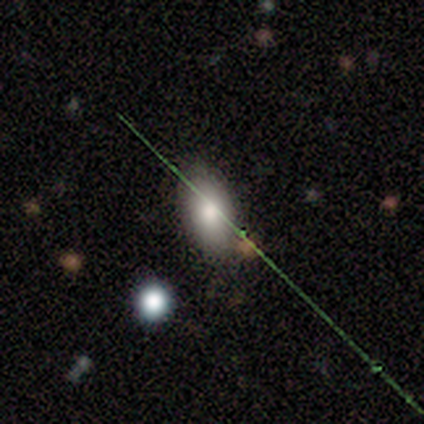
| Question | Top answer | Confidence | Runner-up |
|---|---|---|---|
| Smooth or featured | smooth | 60% | featured or disk (20%) |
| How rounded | in between | 100% | — |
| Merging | none | 75% | minor disturbance (25%) |